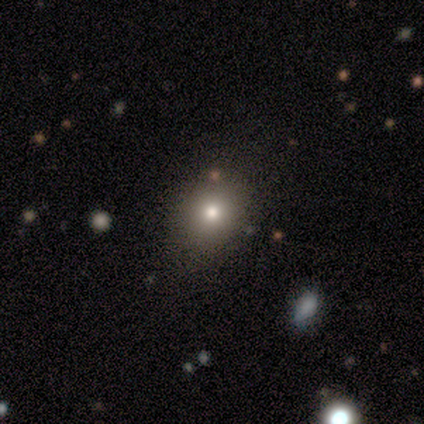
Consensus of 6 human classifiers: Smooth or featured?
  - smooth: 67% *
  - featured or disk: 17%
  - star or artifact: 17%
How rounded?
  - round: 75% *
  - in between: 25%
  - cigar-shaped: 0%
Merging?
  - none: 80% *
  - major disturbance: 20%
  - minor disturbance: 0%
  - merger: 0%